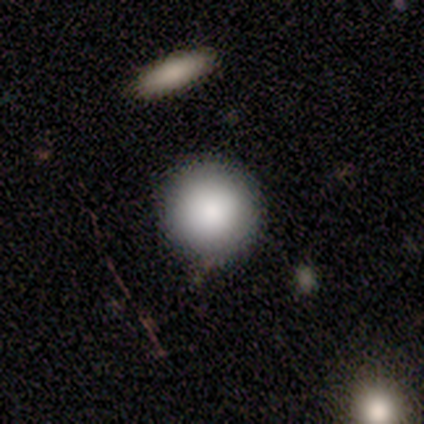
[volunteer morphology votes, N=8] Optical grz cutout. It shows a smooth galaxy with no disk features (100%) that is round (100%). Merging: none (75%).